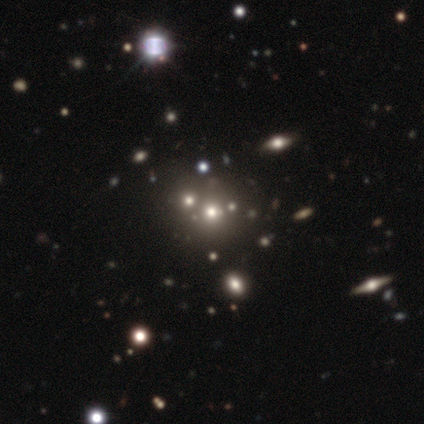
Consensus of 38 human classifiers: This is possibly a smooth galaxy (47%). How rounded: clearly round (89%). Merging: likely none (76%).